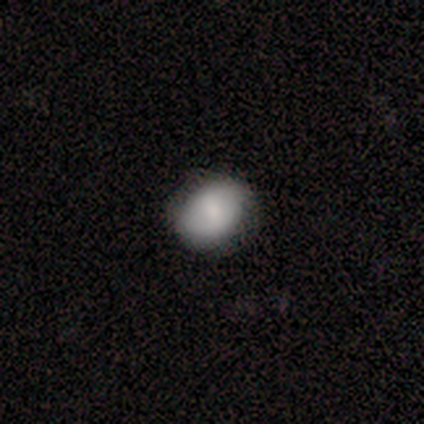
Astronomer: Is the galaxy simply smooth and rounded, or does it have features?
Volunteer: smooth — 100%.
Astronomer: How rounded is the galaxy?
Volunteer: in between — 60% (runner-up: round, 40%).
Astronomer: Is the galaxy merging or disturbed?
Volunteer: none — 80%.